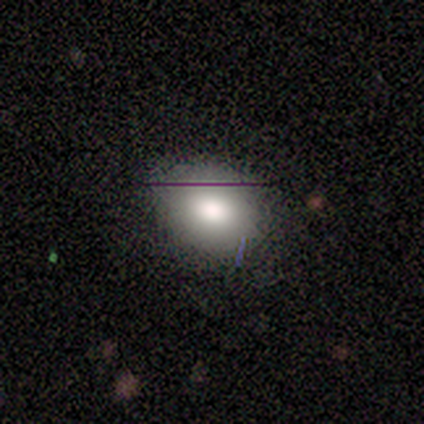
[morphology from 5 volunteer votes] type=smooth (80%); roundness=round (50%, tied with in between); merging=minor disturbance (50%).